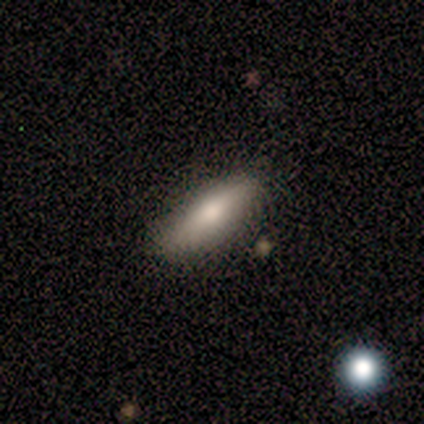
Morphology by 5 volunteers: Q: Smooth or featured?
A: smooth (60%); runner-up: featured or disk (40%)
Q: How rounded?
A: cigar-shaped (67%); runner-up: in between (33%)
Q: Merging?
A: none (60%); runner-up: minor disturbance (20%)